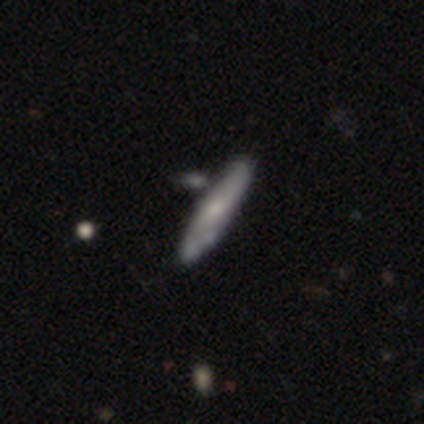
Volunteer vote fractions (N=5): Overall: smooth (40%, tied with featured or disk). How rounded: cigar-shaped (100%). Merging: merger (50%; none 25%).